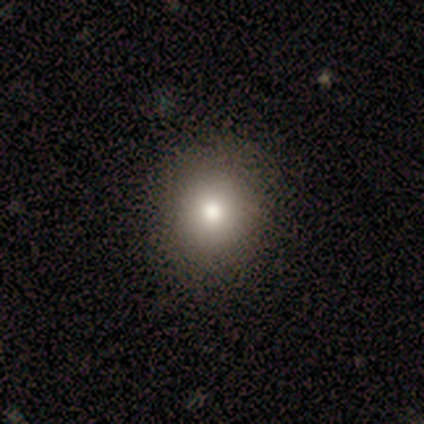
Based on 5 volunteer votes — A smooth galaxy with no disk features (80%) that is round (100%).

Vote fractions:
- Smooth or featured? smooth: 80% / featured or disk: 20% / star or artifact: 0%
- How rounded? round: 100% / in between: 0% / cigar-shaped: 0%
- Merging? none: 80% / minor disturbance: 20% / major disturbance: 0% / merger: 0%